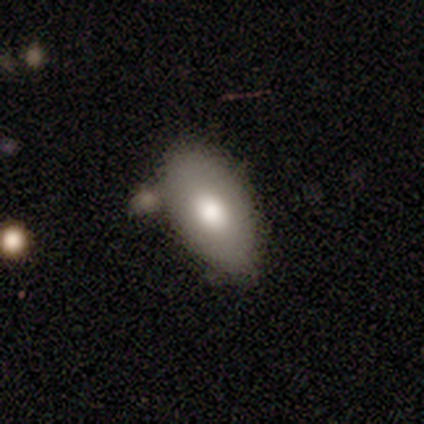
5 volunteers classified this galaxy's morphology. Overall: smooth (100%). How rounded: in between (100%). Merging: minor disturbance (60%; none 40%).